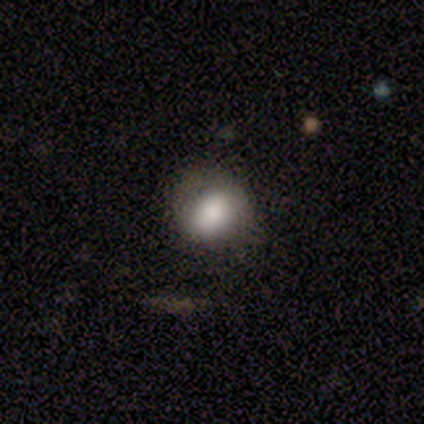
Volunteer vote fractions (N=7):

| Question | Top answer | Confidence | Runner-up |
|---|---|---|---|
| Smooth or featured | smooth | 71% | featured or disk (14%) |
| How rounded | round | 60% | in between (40%) |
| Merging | none | 83% | minor disturbance (17%) |